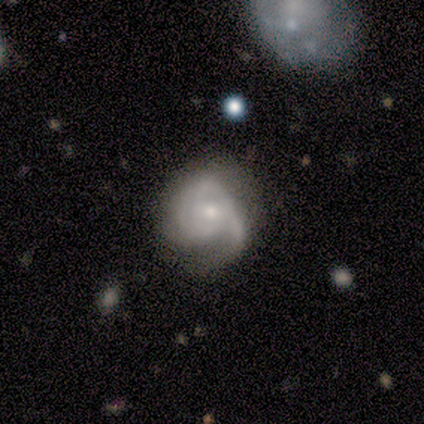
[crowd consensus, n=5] Morphology: type=featured or disk (80%); edge-on=no (100%); bar=no (100%); spiral arms=yes (50%, tied with no); winding=tight (50%, tied with medium); arm count=3 (50%, tied with can't tell); bulge=small (100%); merging=none (40%, tied with major disturbance).